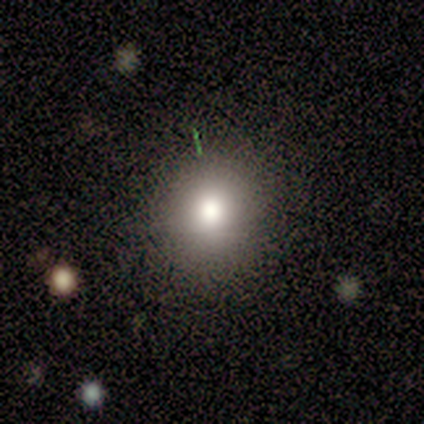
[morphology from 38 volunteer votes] Smooth or featured? 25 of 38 (66%) said smooth. How rounded? 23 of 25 (92%) said round. Merging? 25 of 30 (83%) said none.